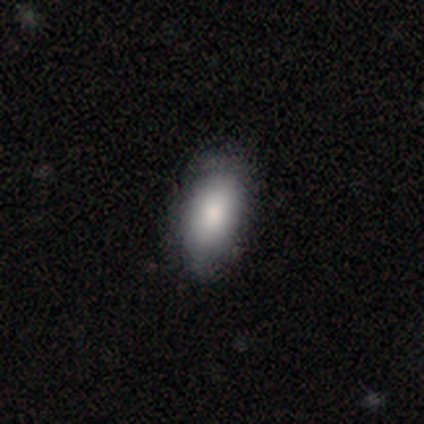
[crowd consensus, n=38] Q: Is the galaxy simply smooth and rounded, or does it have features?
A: smooth — 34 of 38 (89%).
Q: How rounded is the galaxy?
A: in between — 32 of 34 (94%).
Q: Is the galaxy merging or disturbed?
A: none — 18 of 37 (49%).